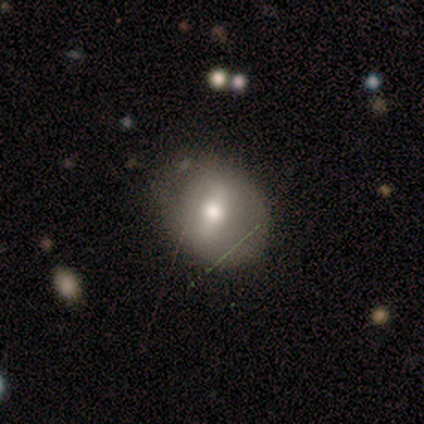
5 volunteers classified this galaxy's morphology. A smooth galaxy with no disk features (60%) that is round (67%).

Vote fractions:
- Smooth or featured? smooth: 60% / featured or disk: 40% / star or artifact: 0%
- How rounded? round: 67% / in between: 33% / cigar-shaped: 0%
- Merging? none: 40% (tied) / minor disturbance: 40% (tied) / merger: 20% / major disturbance: 0%